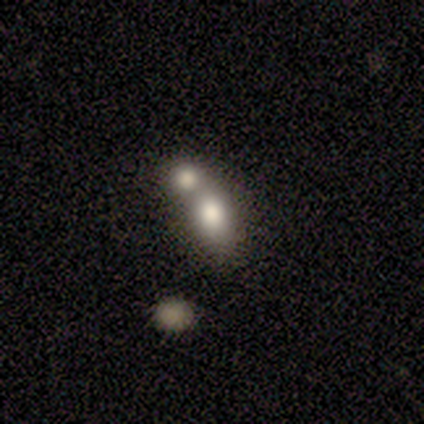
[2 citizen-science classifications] A smooth galaxy with no disk features (100%) that is in between round and cigar-shaped (100%).

Vote fractions:
- Smooth or featured? smooth: 100% / featured or disk: 0% / star or artifact: 0%
- How rounded? in between: 100% / round: 0% / cigar-shaped: 0%
- Merging? major disturbance: 50% (tied) / merger: 50% (tied) / none: 0% / minor disturbance: 0%